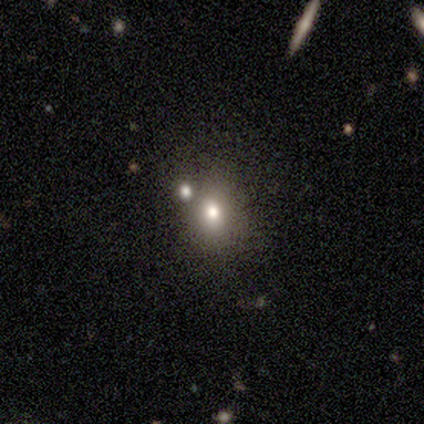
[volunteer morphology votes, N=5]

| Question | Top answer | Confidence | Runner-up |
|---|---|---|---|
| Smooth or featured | smooth | 80% | star or artifact (20%) |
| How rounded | round | 50% | in between (25%) |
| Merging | none | 50% | minor disturbance (25%) |